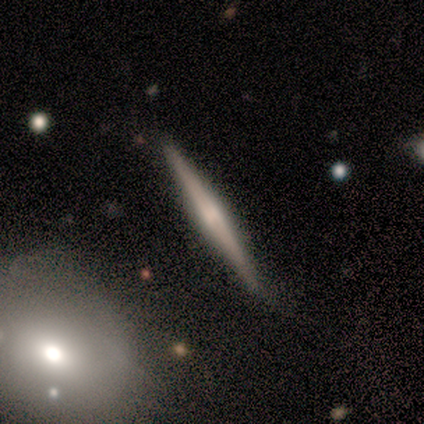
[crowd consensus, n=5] Smooth or featured? featured or disk (80%)
Edge-on disk? yes (100%)
Edge-on bulge? rounded (50%)
Merging? none (80%)